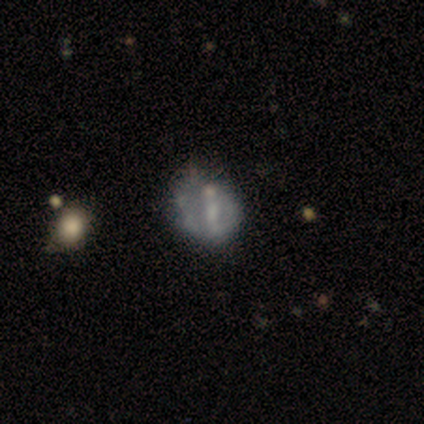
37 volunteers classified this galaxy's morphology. featured or disk 54%, smooth 32%, star or artifact 14%. Down the decision tree: edge-on disk — no (95%); bar — no (47%); spiral arms — no (63%); bulge size — small (47%); merging — none (44%).